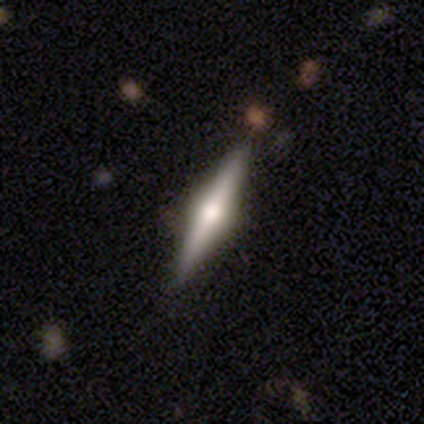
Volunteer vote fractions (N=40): This appears to be a featured or disk galaxy (82%) viewed edge-on (100%) with a rounded central bulge (94%). Merging: none (85%).